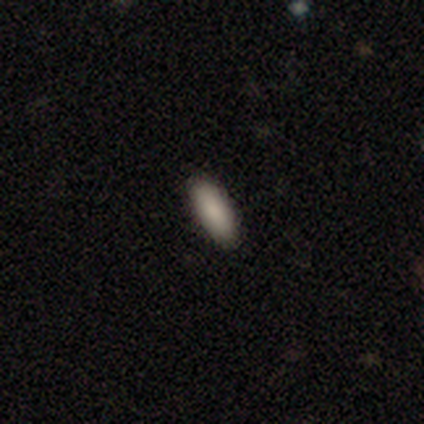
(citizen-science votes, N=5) smooth 80%, featured or disk 20%, star or artifact 0%. Down the decision tree: how rounded — in between (100%); merging — none (100%).